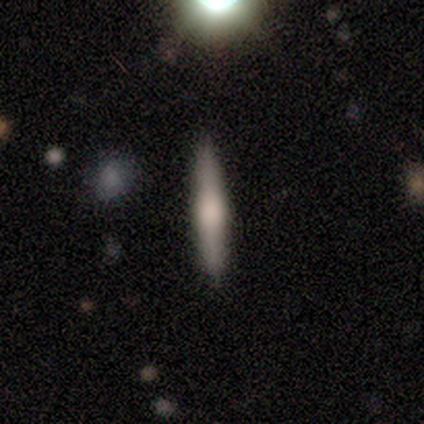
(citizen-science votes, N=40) smooth_or_featured: smooth (p=0.53) [alt: featured or disk p=0.42]
how_rounded: cigar-shaped (p=0.90) [alt: in between p=0.10]
merging: none (p=0.92) [alt: minor disturbance p=0.08]